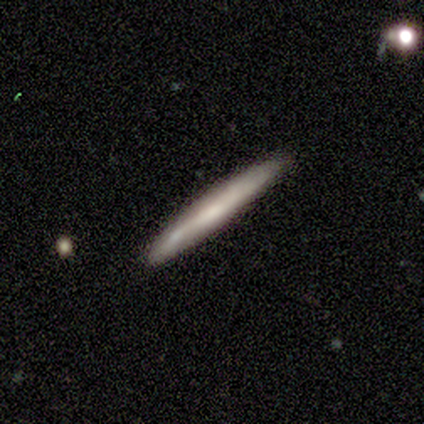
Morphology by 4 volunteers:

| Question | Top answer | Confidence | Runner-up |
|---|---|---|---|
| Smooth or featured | smooth | 100% | — |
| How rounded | cigar-shaped | 100% | — |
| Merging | none | 50% | tied: minor disturbance (50%) |